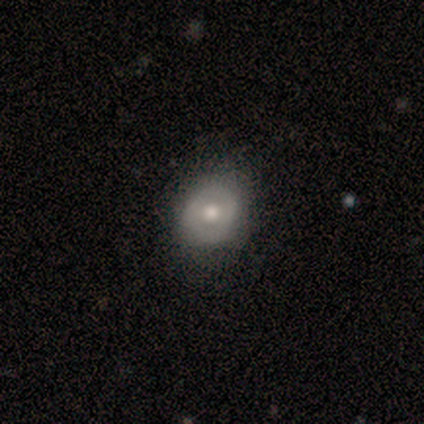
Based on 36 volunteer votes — Smooth or featured? 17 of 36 (47%) said smooth. How rounded? 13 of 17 (76%) said round. Merging? 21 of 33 (64%) said none.